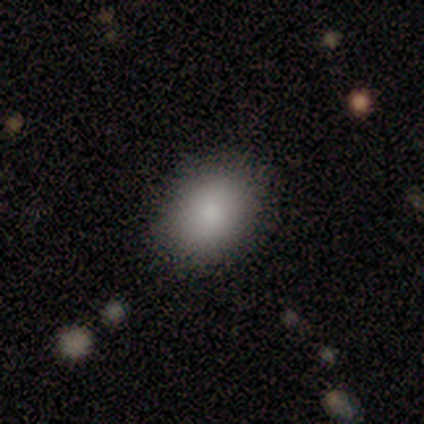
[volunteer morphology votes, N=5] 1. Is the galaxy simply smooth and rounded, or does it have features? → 100% smooth, 0% featured or disk, 0% star or artifact.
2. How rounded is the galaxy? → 80% in between, 20% round, 0% cigar-shaped.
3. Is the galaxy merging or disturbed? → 100% none, 0% minor disturbance, 0% major disturbance, 0% merger.